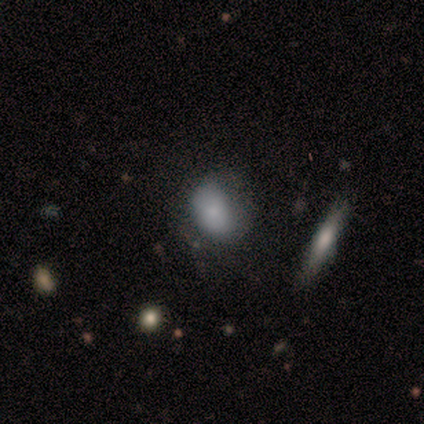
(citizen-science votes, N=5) Morphology: type=smooth (40%, tied with featured or disk); roundness=in between (100%); merging=minor disturbance (75%).